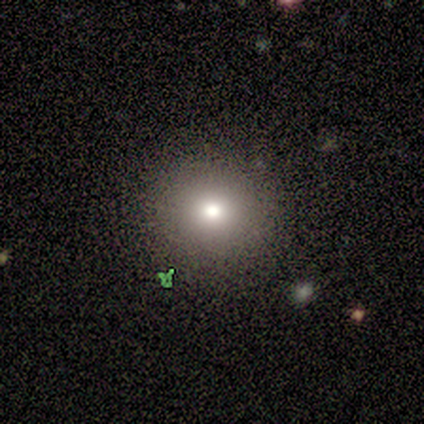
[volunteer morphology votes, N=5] type=smooth (60%); roundness=round (67%); merging=none (100%).